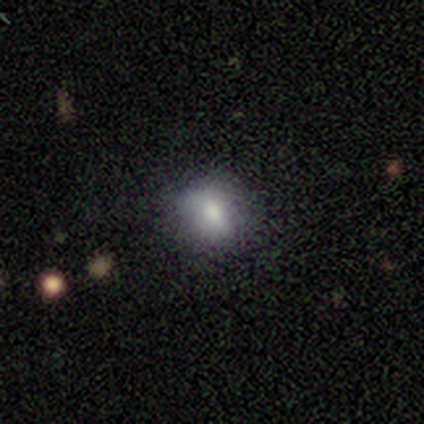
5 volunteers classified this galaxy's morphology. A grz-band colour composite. It shows a smooth galaxy with no disk features (80%) that is round (75%). Merging: none (40%, tied with minor disturbance).